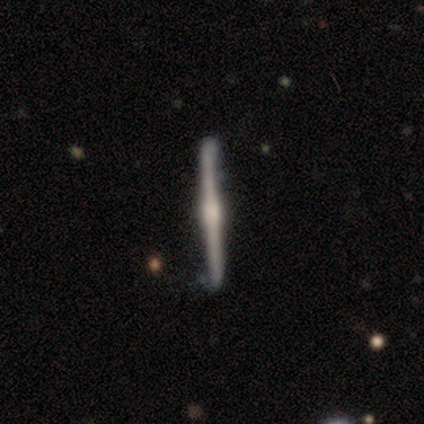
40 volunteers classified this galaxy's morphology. Smooth or featured? 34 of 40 (85%) said featured or disk. Edge-on disk? 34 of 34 (100%) said yes. Edge-on bulge? 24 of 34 (71%) said rounded. Merging? 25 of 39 (64%) said none.